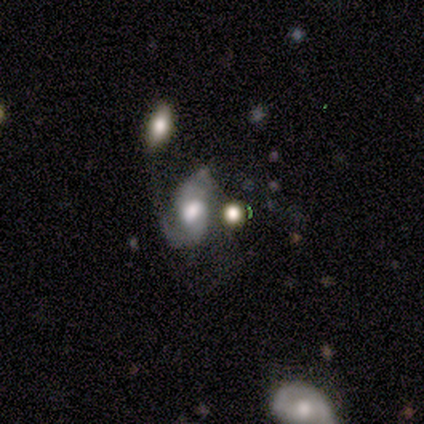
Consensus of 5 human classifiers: Smooth or featured? 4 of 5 (80%) said featured or disk. Edge-on disk? 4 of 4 (100%) said no. Bar? 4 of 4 (100%) said no. Spiral arms? 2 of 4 (50%, tied with no) said yes. Spiral winding? 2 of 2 (100%) said medium. Spiral arm count? 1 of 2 (50%, tied with can't tell) said 1. Bulge size? 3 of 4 (75%) said moderate. Merging? 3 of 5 (60%) said merger.